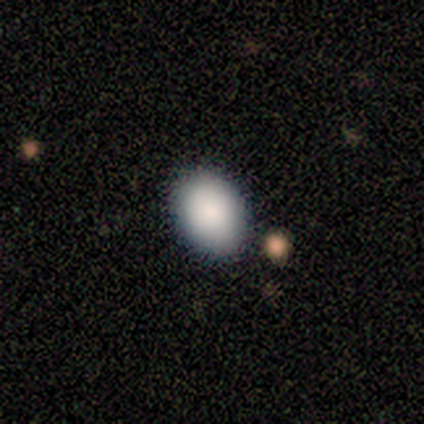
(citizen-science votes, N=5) Q: Smooth or featured?
A: smooth (100%)
Q: How rounded?
A: in between (60%); runner-up: round (40%)
Q: Merging?
A: none (100%)